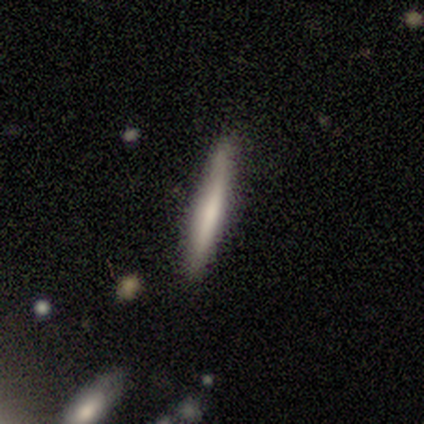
A smooth galaxy with no disk features (79%) that is cigar-shaped (91%). Merging: none (86%).